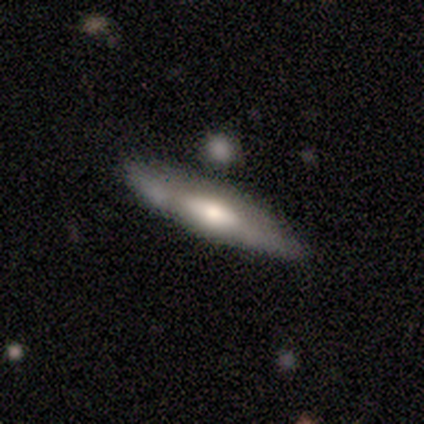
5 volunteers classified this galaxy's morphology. This appears to be a featured or disk galaxy (80%) viewed edge-on (75%) with a rounded central bulge (100%). Merging: none (100%).